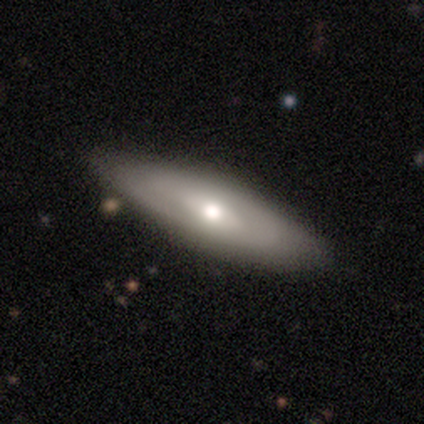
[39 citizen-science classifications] smooth_or_featured: featured or disk (p=0.67) [alt: smooth p=0.28]
disk_edge_on: no (p=0.62) [alt: yes p=0.38]
bar: no (p=0.56) [alt: weak p=0.25]
has_spiral_arms: no (p=0.62) [alt: yes p=0.38]
bulge_size: moderate (p=0.75) [alt: large p=0.12]
merging: none (p=0.57) [alt: minor disturbance p=0.05]